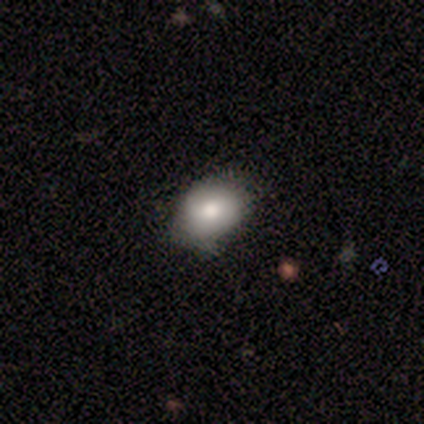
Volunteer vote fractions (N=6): Smooth or featured? 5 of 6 (83%) said smooth. How rounded? 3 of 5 (60%) said in between. Merging? 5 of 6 (83%) said none.